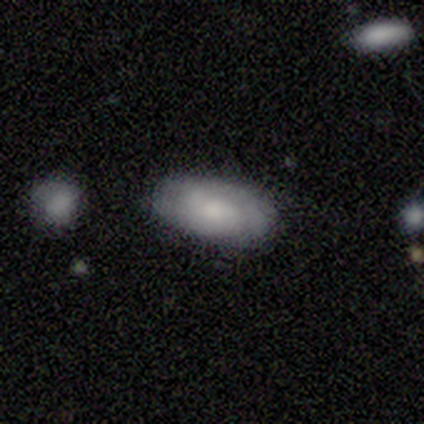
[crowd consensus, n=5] smooth_or_featured: featured or disk (p=0.60) [alt: smooth p=0.40]
disk_edge_on: no (p=1.00)
bar: no (p=0.67) [alt: weak p=0.33]
has_spiral_arms: yes (p=0.67) [alt: no p=0.33]
spiral_winding: tight (p=0.50) [tied with: medium p=0.50]
spiral_arm_count: 2 (p=0.50) [tied with: can't tell p=0.50]
bulge_size: small (p=1.00)
merging: none (p=0.60) [alt: minor disturbance p=0.40]